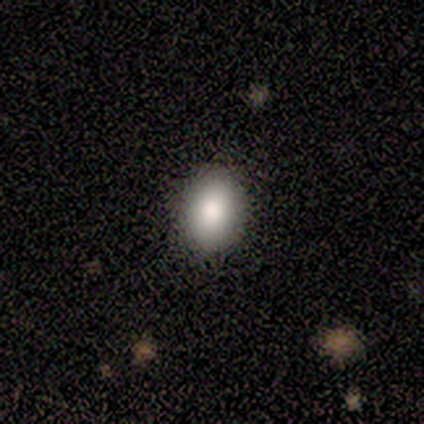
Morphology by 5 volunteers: type=smooth (40%, tied with featured or disk); roundness=in between (100%); merging=none (100%).